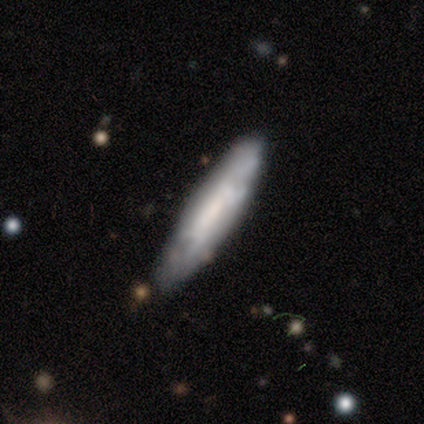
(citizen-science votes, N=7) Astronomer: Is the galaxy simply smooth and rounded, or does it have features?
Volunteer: smooth — 57% (runner-up: featured or disk, 43%).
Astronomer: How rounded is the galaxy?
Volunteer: cigar-shaped — 100%.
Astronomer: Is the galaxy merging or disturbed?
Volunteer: none — 100%.